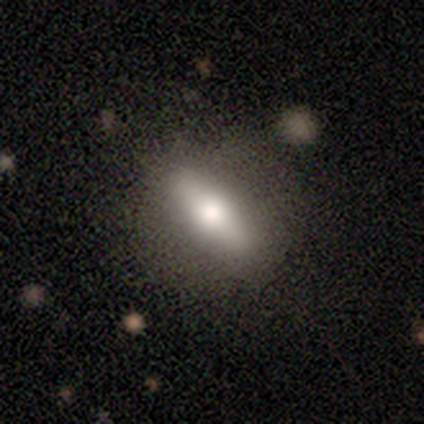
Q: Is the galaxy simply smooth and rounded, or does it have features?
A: smooth — 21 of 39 (54%).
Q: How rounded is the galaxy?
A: in between — 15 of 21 (71%).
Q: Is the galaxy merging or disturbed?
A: none — 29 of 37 (78%).